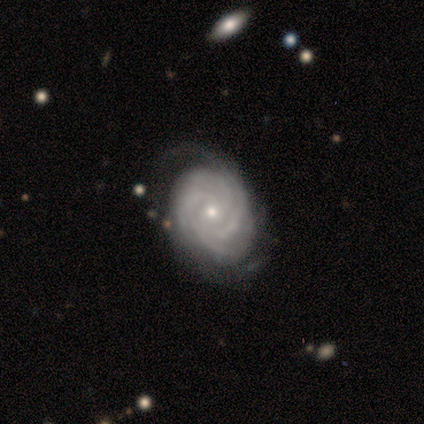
A featured or disk galaxy (88%) with no bar (100%), 4 (43%) tight (86%) spiral arms (100%) and a small central bulge (71%). Merging: none (62%).